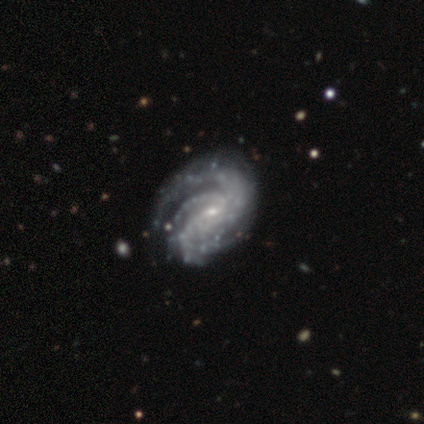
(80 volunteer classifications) A featured or disk galaxy (98%) with no bar (46%), 3 (27%, tied with can't tell) tight (65%) spiral arms (99%) and a small central bulge (86%).

Vote fractions:
- Smooth or featured? featured or disk: 98% / star or artifact: 2% / smooth: 0%
- Edge-on disk? no: 97% / yes: 3%
- Bar? no: 46% / weak: 43% / strong: 11%
- Spiral arms? yes: 99% / no: 1%
- Spiral winding? tight: 65% / medium: 31% / loose: 4%
- Spiral arm count? 3: 27% (tied) / can't tell: 27% (tied) / 2: 16% / 4: 16% / more than 4: 9% / 1: 5%
- Bulge size? small: 86% / moderate: 12% / none: 3% / dominant: 0% / large: 0%
- Merging? none: 32% / minor disturbance: 17% / major disturbance: 6% / merger: 5%